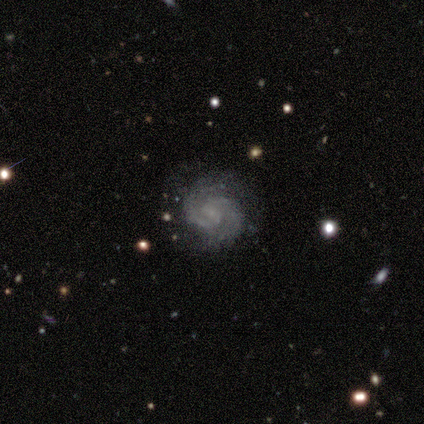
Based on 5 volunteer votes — A featured or disk galaxy (60%) with no bar (67%), 2 (100%) medium (67%) spiral arms (100%) and a small central bulge (100%).

Vote fractions:
- Smooth or featured? featured or disk: 60% / smooth: 20% / star or artifact: 20%
- Edge-on disk? no: 100% / yes: 0%
- Bar? no: 67% / weak: 33% / strong: 0%
- Spiral arms? yes: 100% / no: 0%
- Spiral winding? medium: 67% / tight: 33% / loose: 0%
- Spiral arm count? 2: 100% / 1: 0% / 3: 0% / 4: 0% / more than 4: 0% / can't tell: 0%
- Bulge size? small: 100% / dominant: 0% / large: 0% / moderate: 0% / none: 0%
- Merging? none: 100% / minor disturbance: 0% / major disturbance: 0% / merger: 0%